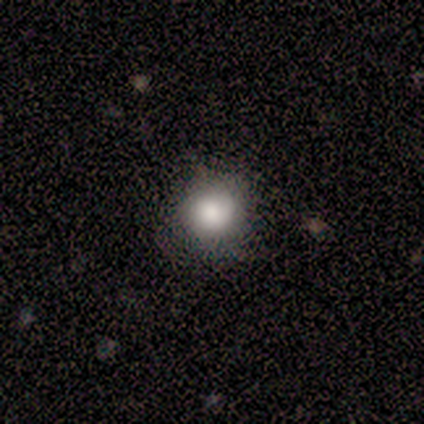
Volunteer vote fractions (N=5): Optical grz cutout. It shows a smooth galaxy with no disk features (80%) that is round (100%). Merging: none (100%).